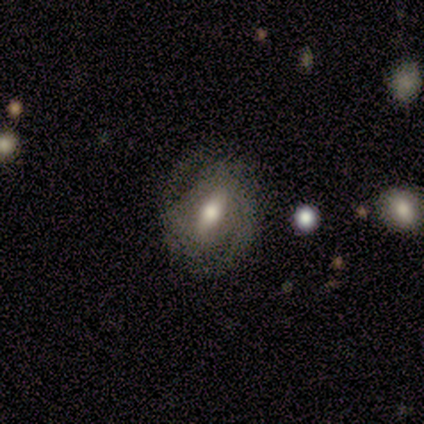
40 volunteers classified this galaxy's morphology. featured or disk 88%, smooth 12%, star or artifact 0%. Down the decision tree: edge-on disk — no (94%); bar — strong (61%); spiral arms — yes (91%); spiral arm count — 2 (67%); spiral winding — tight (50%); bulge size — moderate (79%); merging — none (60%).